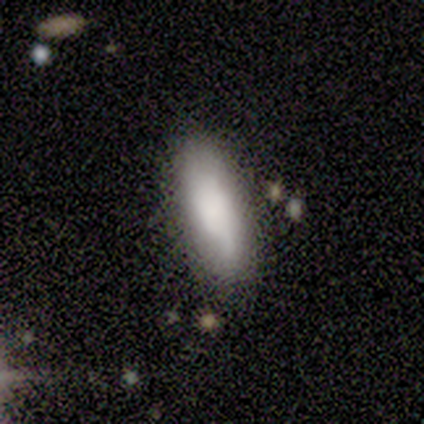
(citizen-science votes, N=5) Smooth or featured? smooth (80%)
How rounded? in between (50%, tied with cigar-shaped)
Merging? none (40%, tied with minor disturbance)